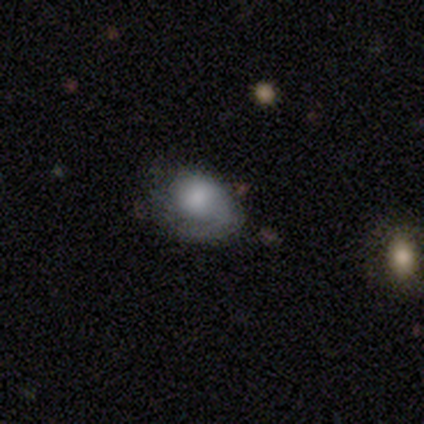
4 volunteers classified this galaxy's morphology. Smooth or featured? smooth (50%, tied with featured or disk)
How rounded? in between (100%)
Merging? none (75%)